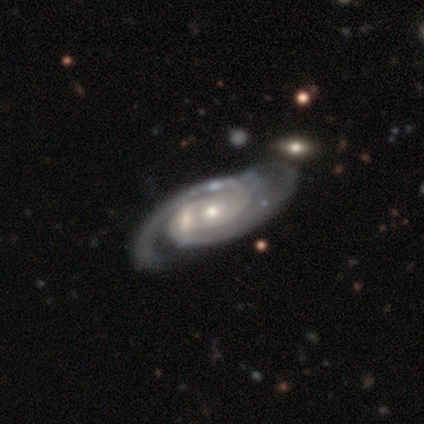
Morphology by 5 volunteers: Smooth or featured? 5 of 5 (100%) said featured or disk. Edge-on disk? 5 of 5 (100%) said no. Bar? 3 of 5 (60%) said no. Spiral arms? 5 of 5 (100%) said yes. Spiral winding? 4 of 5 (80%) said tight. Spiral arm count? 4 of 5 (80%) said 2. Bulge size? 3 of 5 (60%) said small. Merging? 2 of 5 (40%, tied with major disturbance) said none.